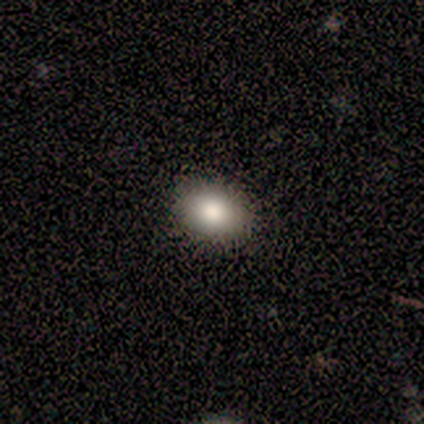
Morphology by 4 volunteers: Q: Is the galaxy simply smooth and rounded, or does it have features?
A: smooth — 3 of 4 (75%).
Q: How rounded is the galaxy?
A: in between — 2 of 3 (67%).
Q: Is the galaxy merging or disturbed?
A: none — 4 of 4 (100%).